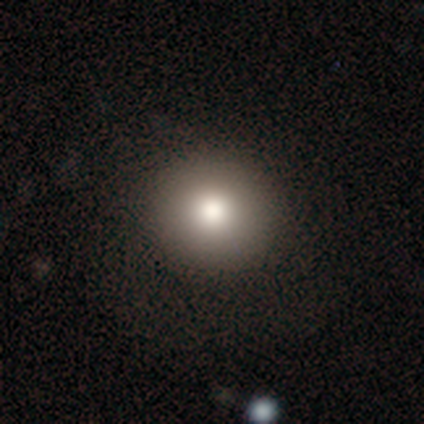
Overall: smooth (80%). How rounded: round (100%). Merging: none (100%).